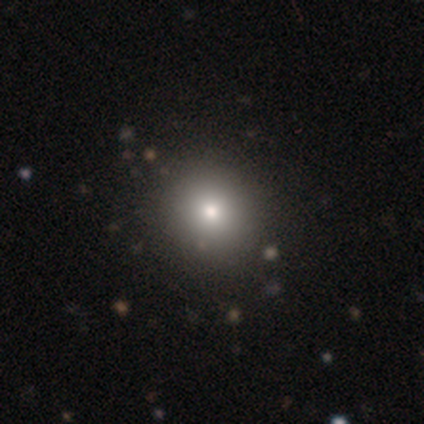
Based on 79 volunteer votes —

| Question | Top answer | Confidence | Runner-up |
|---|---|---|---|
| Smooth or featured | smooth | 78% | star or artifact (15%) |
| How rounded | round | 92% | in between (6%) |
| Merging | none | 79% | minor disturbance (4%) |